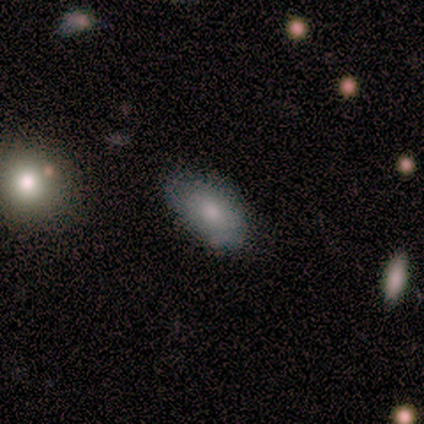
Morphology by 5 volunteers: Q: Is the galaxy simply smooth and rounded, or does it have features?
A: smooth — 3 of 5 (60%).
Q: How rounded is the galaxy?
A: in between — 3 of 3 (100%).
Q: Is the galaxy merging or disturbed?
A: none — 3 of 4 (75%).